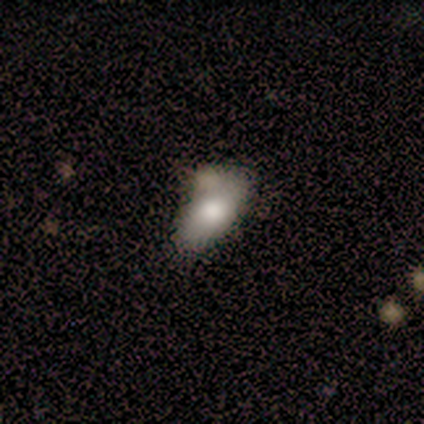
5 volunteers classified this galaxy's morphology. Smooth or featured: smooth — 100%
How rounded: in between — 80% (round — 20%)
Merging: none — 40% (tied with merger — 40%)